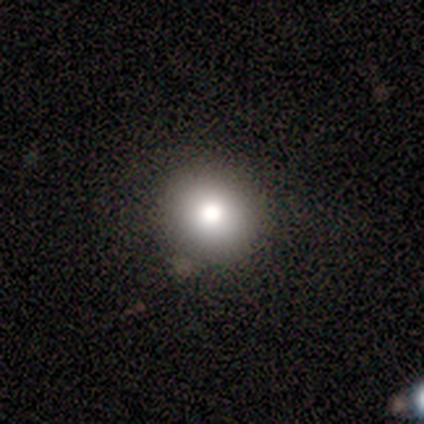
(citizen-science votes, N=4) Morphology: type=smooth (50%, tied with star or artifact); roundness=round (100%); merging=none (50%, tied with minor disturbance).